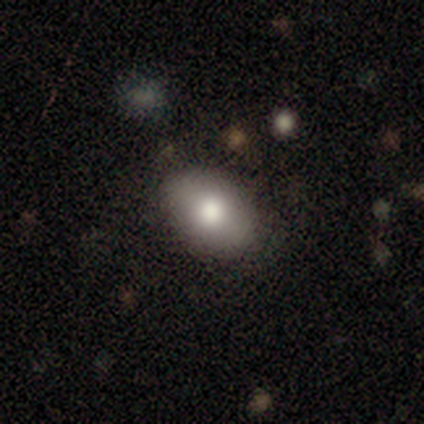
A smooth galaxy with no disk features (80%) that is in between round and cigar-shaped (75%). Merging: none (100%).